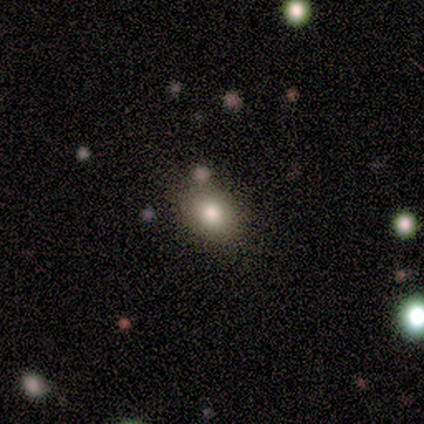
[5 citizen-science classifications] Overall: smooth (80%). How rounded: in between (100%). Merging: none (60%; merger 40%).